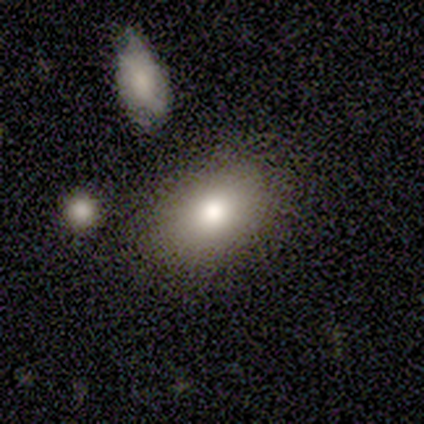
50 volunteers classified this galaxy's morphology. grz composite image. It shows a smooth galaxy with no disk features (88%) that is in between round and cigar-shaped (91%). Merging: none (90%).